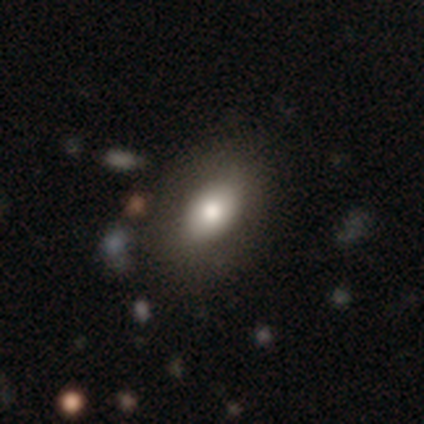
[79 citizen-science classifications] Morphology: type=smooth (72%); roundness=in between (84%); merging=none (46%).